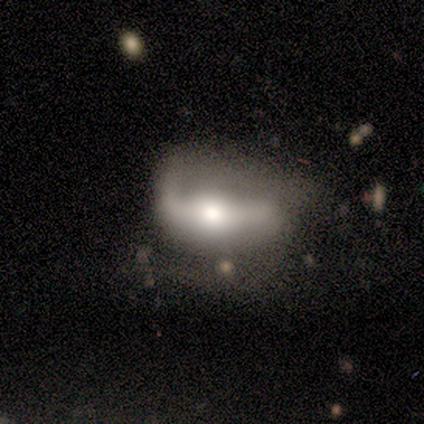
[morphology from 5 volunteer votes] smooth_or_featured: featured or disk (p=0.80) [alt: star or artifact p=0.20]
disk_edge_on: no (p=1.00)
bar: strong (p=0.50) [alt: weak p=0.25]
has_spiral_arms: yes (p=0.75) [alt: no p=0.25]
spiral_winding: medium (p=0.67) [alt: tight p=0.33]
spiral_arm_count: 2 (p=0.67) [alt: can't tell p=0.33]
bulge_size: moderate (p=0.75) [alt: large p=0.25]
merging: none (p=0.50) [alt: minor disturbance p=0.25]